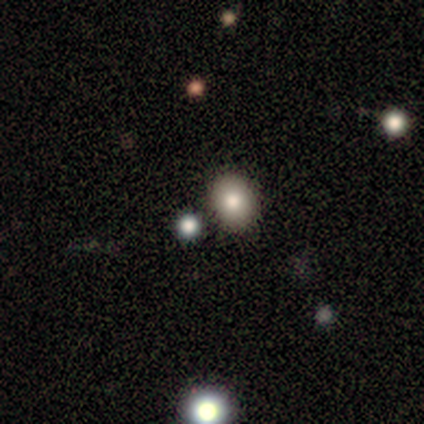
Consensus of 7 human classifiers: Smooth or featured? smooth (57%)
How rounded? round (50%, tied with in between)
Merging? none (100%)